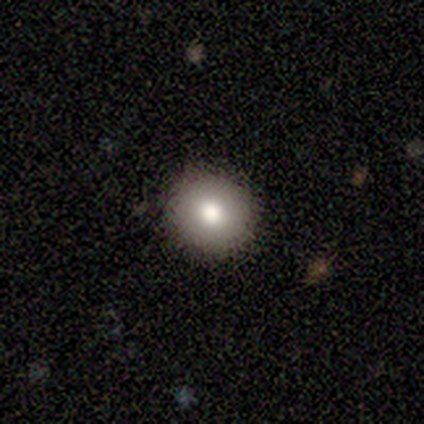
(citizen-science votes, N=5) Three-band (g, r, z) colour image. It shows a smooth galaxy with no disk features (100%) that is round (100%). Merging: none (100%).